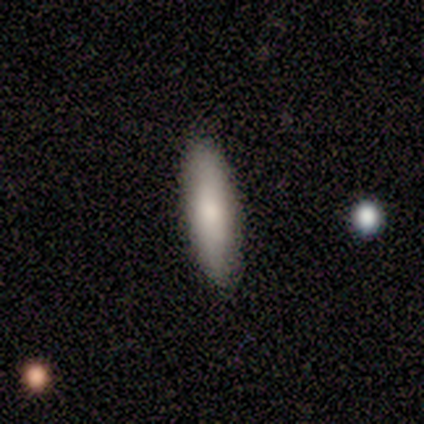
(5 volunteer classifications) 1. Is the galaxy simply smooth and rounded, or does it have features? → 80% smooth, 20% star or artifact, 0% featured or disk.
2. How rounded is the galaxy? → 75% cigar-shaped, 25% in between, 0% round.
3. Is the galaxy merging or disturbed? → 100% none, 0% minor disturbance, 0% major disturbance, 0% merger.